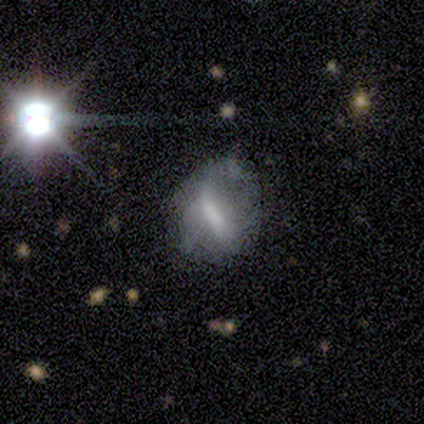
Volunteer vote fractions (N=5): Volunteers were most divided on "bulge size" (2-way tie): moderate: 50%, none: 50%, dominant: 0%, large: 0%, small: 0%; "merging" (2-way tie): none: 40%, minor disturbance: 40%, major disturbance: 20%, merger: 0%. More confident: edge-on disk — no (100%); smooth or featured — featured or disk (80%); bar — strong (75%); spiral arms — no (75%).